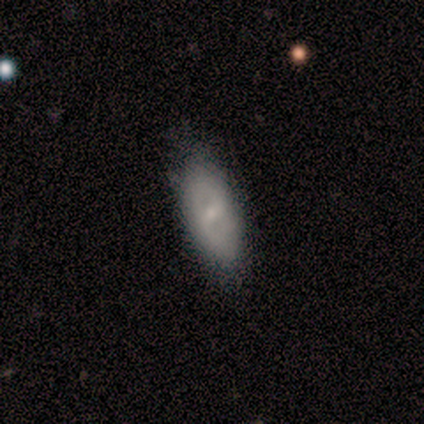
Smooth or featured? 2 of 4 (50%, tied with featured or disk) said smooth. How rounded? 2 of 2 (100%) said in between. Merging? 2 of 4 (50%, tied with minor disturbance) said none.